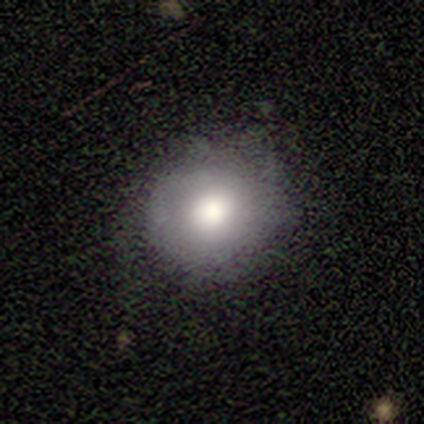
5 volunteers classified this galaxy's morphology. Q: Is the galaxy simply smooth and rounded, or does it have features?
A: smooth — 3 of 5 (60%).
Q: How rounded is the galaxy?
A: round — 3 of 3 (100%).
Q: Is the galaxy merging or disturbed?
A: none — 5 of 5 (100%).